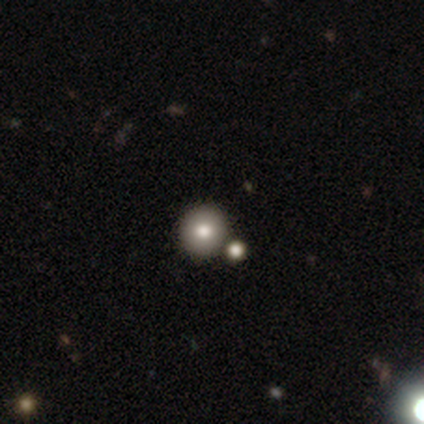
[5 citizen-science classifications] This appears to be a smooth galaxy with no disk features (80%) that is round (100%). Merging: none (100%).